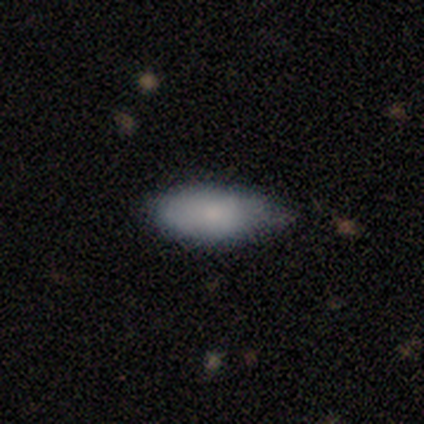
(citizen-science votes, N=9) smooth_or_featured: smooth (p=0.89) [alt: featured or disk p=0.11]
how_rounded: in between (p=0.88) [alt: cigar-shaped p=0.12]
merging: none (p=0.44) [tied with: minor disturbance p=0.44]